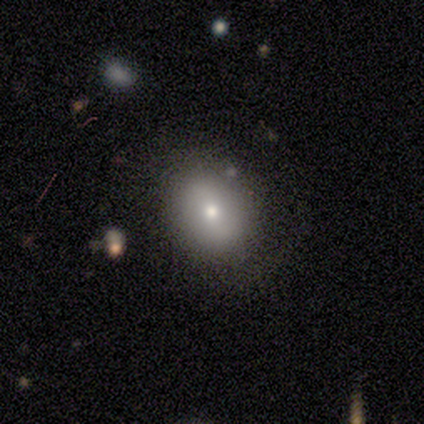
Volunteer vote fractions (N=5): This appears to be a smooth galaxy with no disk features (100%) that is in between round and cigar-shaped (100%). Merging: none (100%).